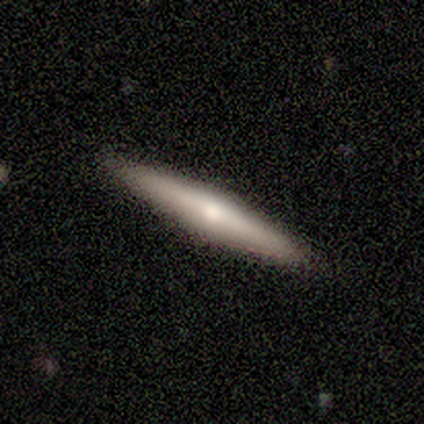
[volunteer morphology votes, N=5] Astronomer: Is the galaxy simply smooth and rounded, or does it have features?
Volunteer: featured or disk — 60% (runner-up: smooth, 40%).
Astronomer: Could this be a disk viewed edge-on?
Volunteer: yes — 100%.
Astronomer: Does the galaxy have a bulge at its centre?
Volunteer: rounded — 100%.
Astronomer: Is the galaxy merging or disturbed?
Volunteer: none — 100%.